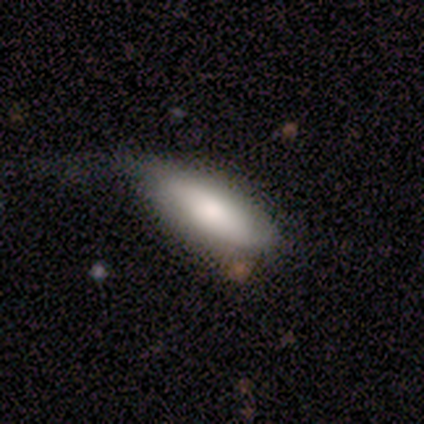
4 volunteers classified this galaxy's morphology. Q: Smooth or featured?
A: featured or disk (50%); runner-up: smooth (25%)
Q: Edge-on disk?
A: yes (50%); tied with: no (50%)
Q: Edge-on bulge?
A: none (100%)
Q: Merging?
A: none (67%); runner-up: major disturbance (33%)